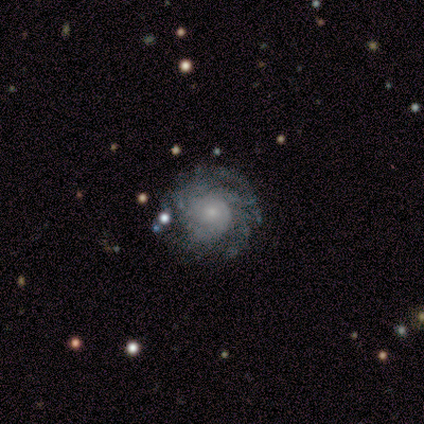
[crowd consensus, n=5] This is clearly a featured or disk galaxy (80%). It is clearly not viewed edge-on (100%). Bar: clearly no (100%). Spiral arm pattern: clearly yes (100%). Spiral arm count: likely more than 4 (75%). Spiral winding: clearly tight (100%). Central bulge: possibly small (50%). Merging: clearly none (80%).